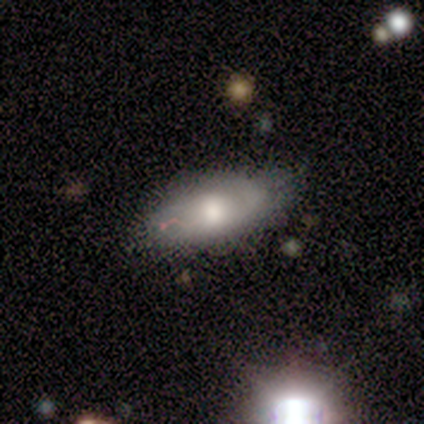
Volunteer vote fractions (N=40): Overall: featured or disk (62%; smooth 30%). Edge-on disk: no (84%). Bar: no (67%; weak 33%). Spiral arms: yes (71%). Spiral arm count: 2 (40%, tied with can't tell). Spiral winding: tight (47%; medium 40%). Bulge size: moderate (52%; large 38%). Merging: none (51%; minor disturbance 38%).